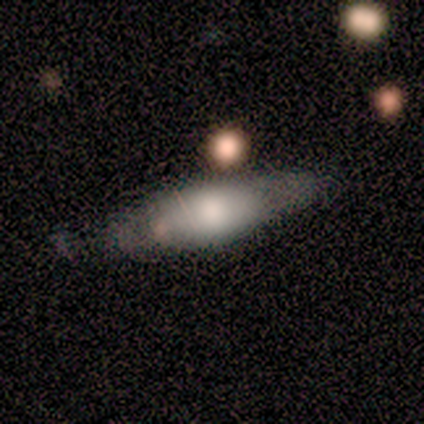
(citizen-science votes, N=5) This appears to be a featured or disk galaxy (60%) with a strong bar (50%, tied with no), 2 (100%) tight (100%) spiral arms (50%, tied with no) and a moderate central bulge (50%, tied with small). Merging: none (40%, tied with minor disturbance).